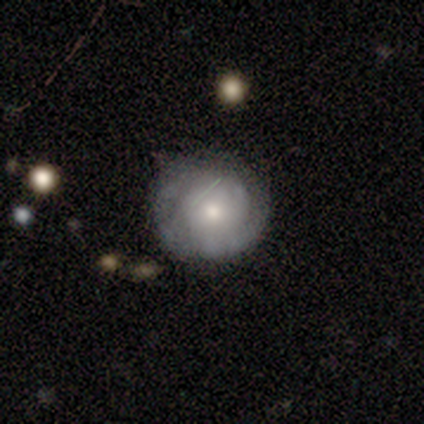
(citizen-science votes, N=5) smooth_or_featured: featured or disk (p=0.60) [alt: smooth p=0.40]
disk_edge_on: no (p=1.00)
bar: no (p=1.00)
has_spiral_arms: no (p=1.00)
bulge_size: moderate (p=0.67) [alt: large p=0.33]
merging: none (p=0.80) [alt: minor disturbance p=0.20]